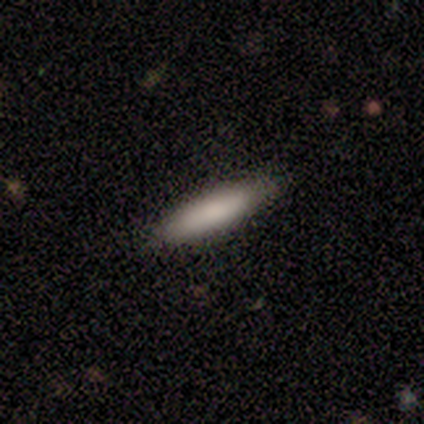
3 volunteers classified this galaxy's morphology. Consensus on every question: smooth or featured — smooth (100%); how rounded — cigar-shaped (100%); merging — none (100%).